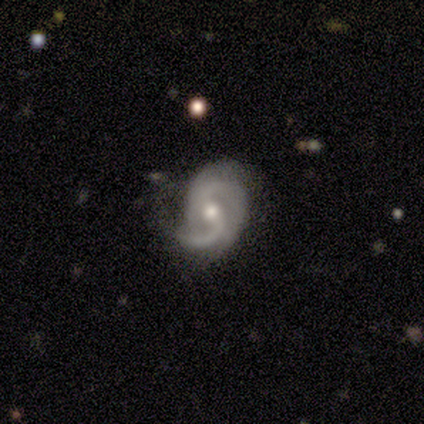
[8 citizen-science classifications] This appears to be a featured or disk galaxy (100%) with no bar (62%), 2 (88%) medium (38%, tied with loose) spiral arms (100%) and a moderate central bulge (50%). Merging: none (100%).